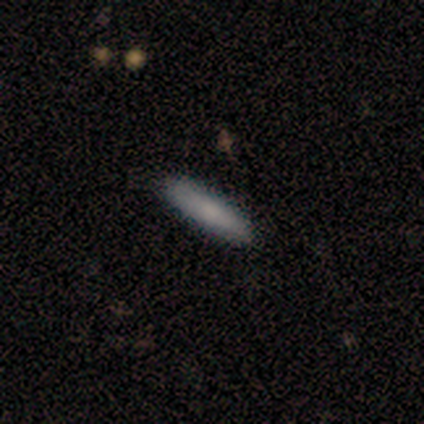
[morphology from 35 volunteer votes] smooth-or-featured: smooth: 66% | star or artifact: 20% | featured or disk: 14%
  how-rounded: cigar-shaped: 87% | in between: 13% | round: 0%
  merging: none: 82% | minor disturbance: 18% | major disturbance: 0% | merger: 0%